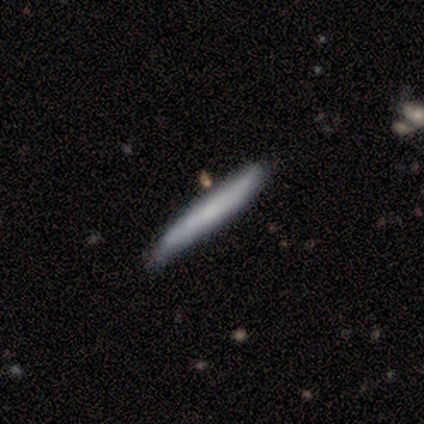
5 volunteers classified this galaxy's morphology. This appears to be a smooth galaxy with no disk features (60%) that is cigar-shaped (100%). Merging: none (100%).